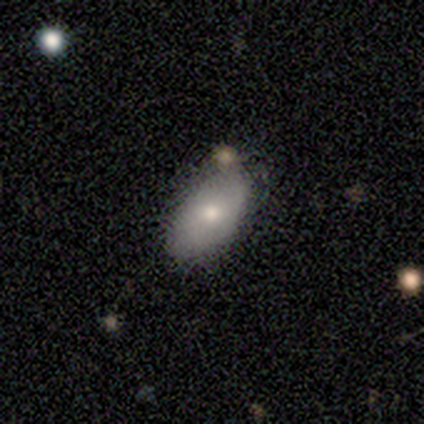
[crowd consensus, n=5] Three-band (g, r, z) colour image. It shows a smooth galaxy with no disk features (100%) that is in between round and cigar-shaped (100%). Merging: none (80%).